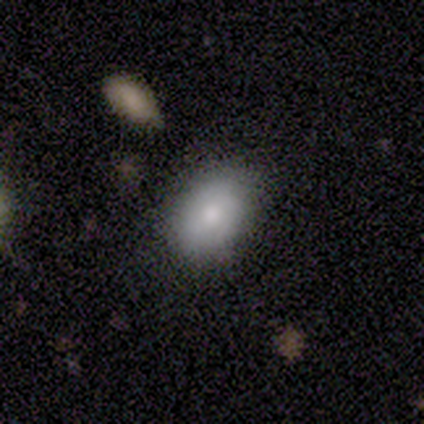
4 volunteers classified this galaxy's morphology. This appears to be a smooth galaxy with no disk features (50%, tied with featured or disk) that is in between round and cigar-shaped (100%). Merging: none (75%).